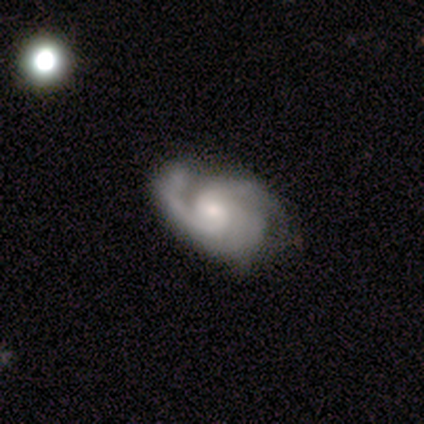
Smooth or featured? featured or disk (100%)
Edge-on disk? no (100%)
Bar? no (100%)
Spiral arms? yes (100%)
Spiral winding? loose (100%)
Spiral arm count? 2 (50%, tied with can't tell)
Bulge size? moderate (50%, tied with small)
Merging? none (50%, tied with minor disturbance)